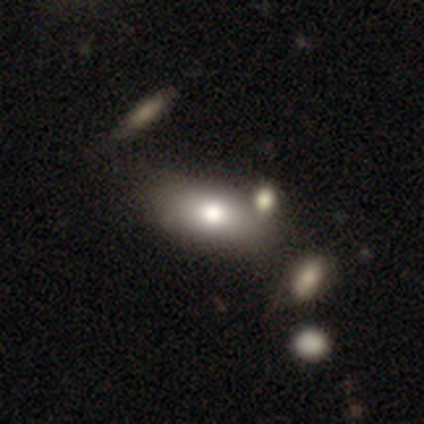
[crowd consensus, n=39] A smooth galaxy with no disk features (77%) that is in between round and cigar-shaped (83%).

Vote fractions:
- Smooth or featured? smooth: 77% / featured or disk: 23% / star or artifact: 0%
- How rounded? in between: 83% / round: 10% / cigar-shaped: 7%
- Merging? none: 44% / merger: 33% / minor disturbance: 10% / major disturbance: 3%